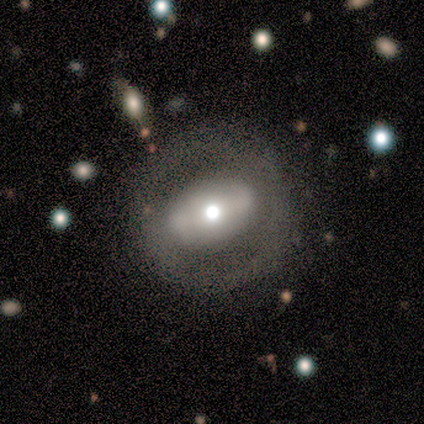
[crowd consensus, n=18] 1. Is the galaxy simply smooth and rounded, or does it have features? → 50% smooth (tied), 50% featured or disk (tied), 0% star or artifact.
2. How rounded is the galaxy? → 56% round, 44% in between, 0% cigar-shaped.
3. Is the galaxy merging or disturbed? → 83% none, 11% major disturbance, 6% minor disturbance, 0% merger.